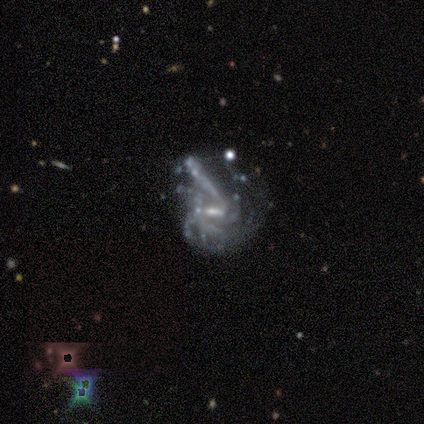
Q: Smooth or featured?
A: featured or disk (100%)
Q: Edge-on disk?
A: no (100%)
Q: Bar?
A: strong (50%); runner-up: weak (25%)
Q: Spiral arms?
A: yes (75%); runner-up: no (25%)
Q: Spiral winding?
A: medium (67%); runner-up: tight (33%)
Q: Spiral arm count?
A: 4 (67%); runner-up: more than 4 (33%)
Q: Bulge size?
A: moderate (50%); tied with: small (50%)
Q: Merging?
A: major disturbance (75%); runner-up: minor disturbance (25%)